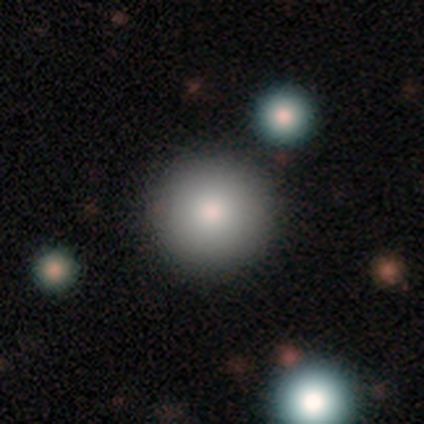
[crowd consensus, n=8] Morphology: type=smooth (62%); roundness=round (100%); merging=none (100%).